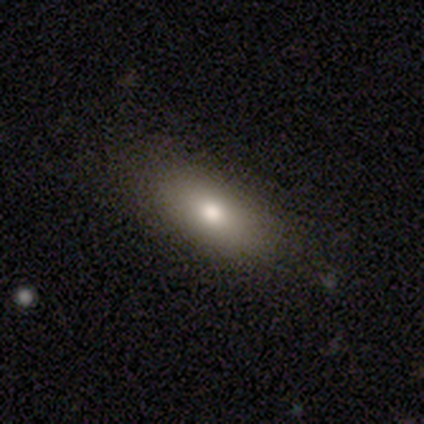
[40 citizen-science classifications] This is likely a smooth galaxy (78%). How rounded: clearly in between (97%). Merging: clearly none (82%).